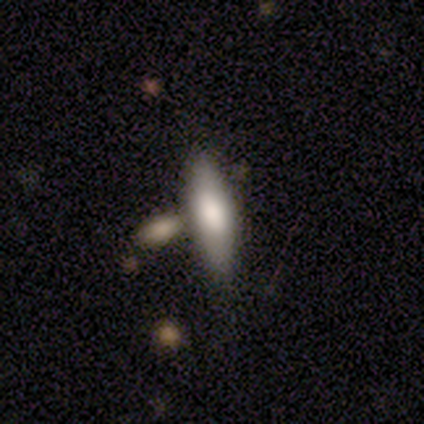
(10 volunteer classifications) Overall: smooth (70%; featured or disk 30%). How rounded: in between (57%; cigar-shaped 43%). Merging: none (60%; merger 40%).